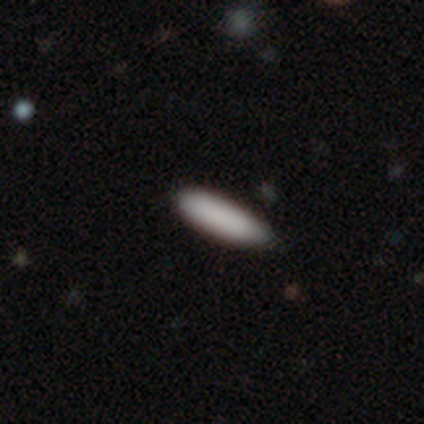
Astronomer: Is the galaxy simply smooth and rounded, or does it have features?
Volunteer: smooth — 92%.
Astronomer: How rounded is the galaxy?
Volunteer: cigar-shaped — 73%.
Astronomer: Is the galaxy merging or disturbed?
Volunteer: none — 79%.